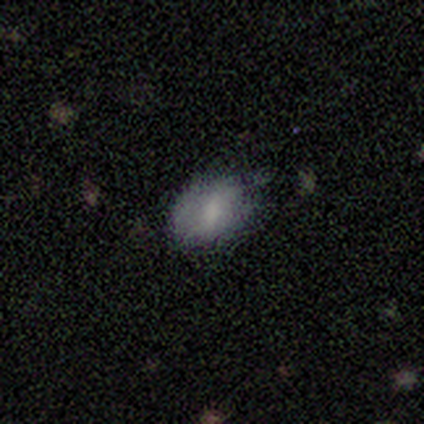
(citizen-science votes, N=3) Q: Smooth or featured?
A: smooth (67%); runner-up: star or artifact (33%)
Q: How rounded?
A: in between (100%)
Q: Merging?
A: none (50%); tied with: minor disturbance (50%)